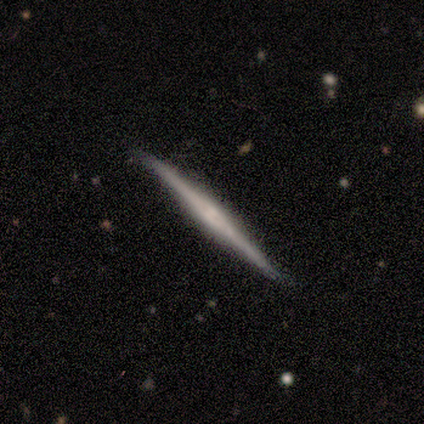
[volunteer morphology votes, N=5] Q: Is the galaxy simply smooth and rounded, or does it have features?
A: featured or disk — 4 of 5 (80%).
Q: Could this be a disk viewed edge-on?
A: yes — 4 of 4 (100%).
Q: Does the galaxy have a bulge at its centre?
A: rounded — 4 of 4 (100%).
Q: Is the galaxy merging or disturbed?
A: none — 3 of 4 (75%).